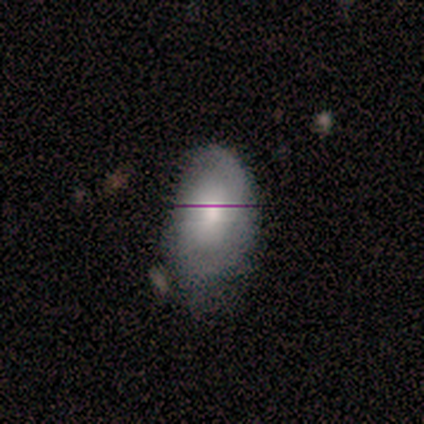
smooth-or-featured: smooth: 70% | featured or disk: 20% | star or artifact: 10%
  how-rounded: in between: 100% | round: 0% | cigar-shaped: 0%
  merging: minor disturbance: 67% | none: 22% | merger: 11% | major disturbance: 0%